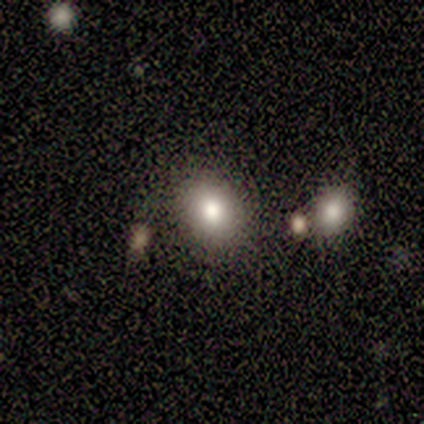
Morphology: type=smooth (60%); roundness=round (100%); merging=none (75%).